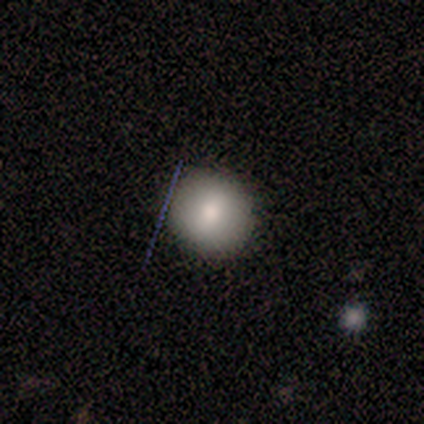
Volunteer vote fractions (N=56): A smooth galaxy with no disk features (75%) that is round (90%).

Vote fractions:
- Smooth or featured? smooth: 75% / featured or disk: 20% / star or artifact: 5%
- How rounded? round: 90% / in between: 10% / cigar-shaped: 0%
- Merging? none: 79% / minor disturbance: 21% / major disturbance: 0% / merger: 0%